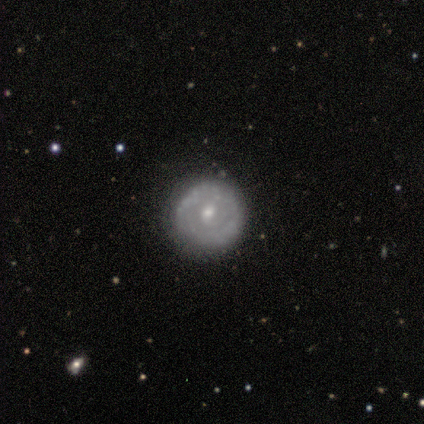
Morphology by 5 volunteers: A featured or disk galaxy (80%) with a weak bar (50%, tied with no), tight (67%) spiral arms (75%) and a moderate central bulge (100%). Merging: none (100%).